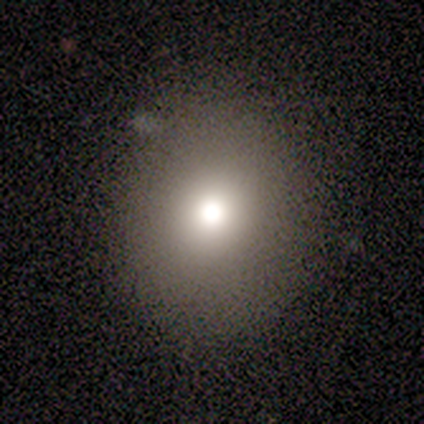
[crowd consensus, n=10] smooth 70%, featured or disk 20%, star or artifact 10%. Down the decision tree: how rounded — in between (57%); merging — none (100%).